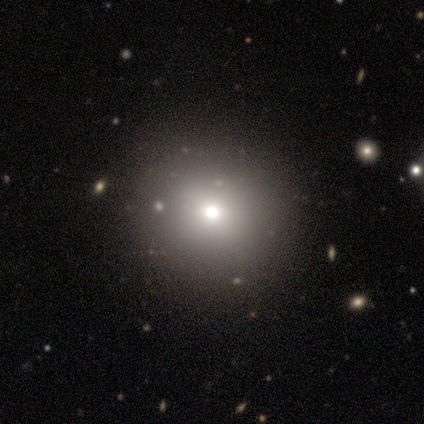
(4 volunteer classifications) A smooth galaxy with no disk features (50%) that is round (100%).

Vote fractions:
- Smooth or featured? smooth: 50% / featured or disk: 25% / star or artifact: 25%
- How rounded? round: 100% / in between: 0% / cigar-shaped: 0%
- Merging? none: 67% / minor disturbance: 33% / major disturbance: 0% / merger: 0%